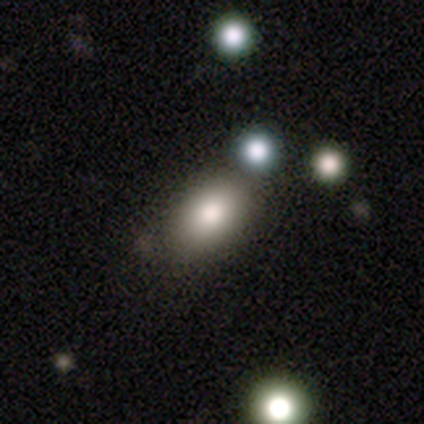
Q: Smooth or featured?
A: smooth (79%); runner-up: star or artifact (13%)
Q: How rounded?
A: in between (83%); runner-up: round (17%)
Q: Merging?
A: none (70%); runner-up: minor disturbance (12%)